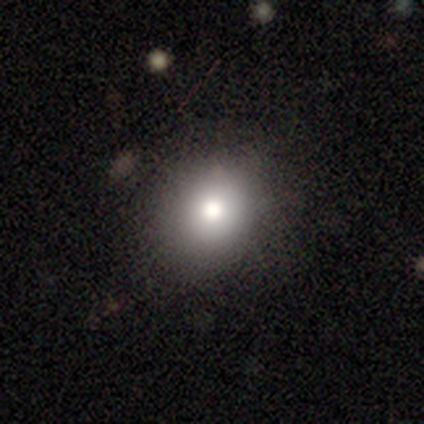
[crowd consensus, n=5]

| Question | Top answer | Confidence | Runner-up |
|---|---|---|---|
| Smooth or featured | smooth | 80% | star or artifact (20%) |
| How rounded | round | 100% | — |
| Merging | none | 75% | minor disturbance (25%) |